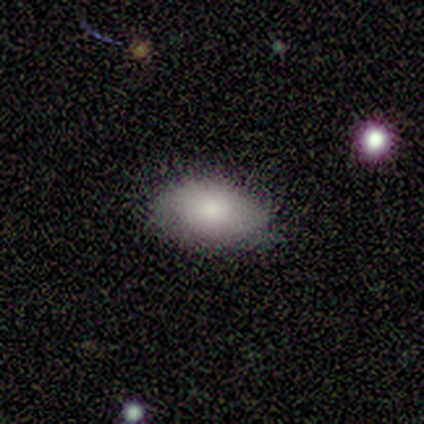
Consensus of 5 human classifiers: This is likely a smooth galaxy (60%). How rounded: clearly in between (100%). Merging: clearly none (100%).